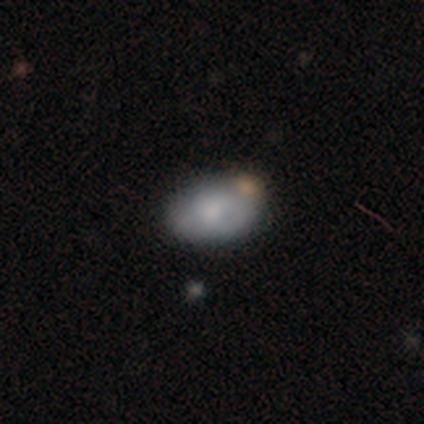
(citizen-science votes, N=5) Smooth or featured: smooth — 60% (featured or disk — 20%)
How rounded: in between — 67% (cigar-shaped — 33%)
Merging: none — 25% (tied with minor disturbance — 25%; major disturbance — 25%; merger — 25%)